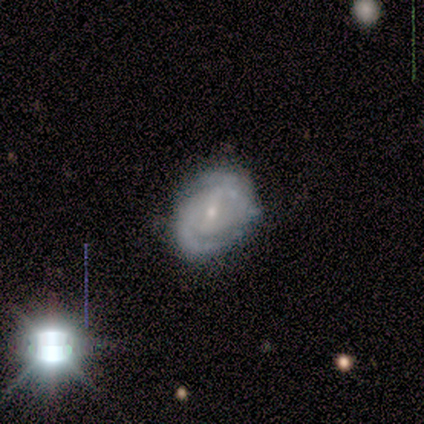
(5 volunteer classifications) This is likely a featured or disk galaxy (60%). It is clearly not viewed edge-on (100%). Bar: likely weak (67%). Spiral arm pattern: clearly yes (100%). Spiral arm count: clearly 2 (100%). Spiral winding: likely medium (67%). Central bulge: clearly small (100%). Merging: likely none (60%).